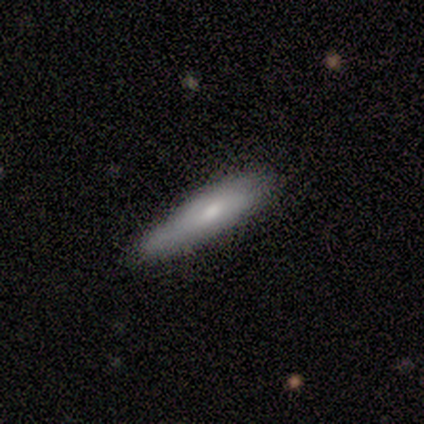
A smooth galaxy with no disk features (100%) that is cigar-shaped (80%). Merging: none (100%).